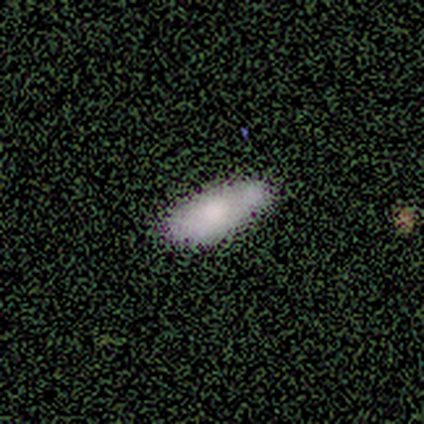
Smooth or featured: smooth — 60% (featured or disk — 20%)
How rounded: in between — 67% (cigar-shaped — 33%)
Merging: none — 100%